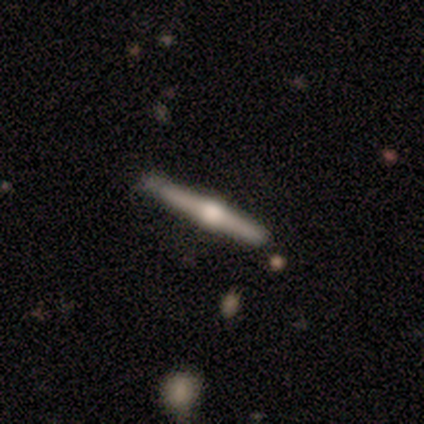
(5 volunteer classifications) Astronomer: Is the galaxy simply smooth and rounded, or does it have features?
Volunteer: smooth — 60% (runner-up: featured or disk, 40%).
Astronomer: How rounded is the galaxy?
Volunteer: cigar-shaped — 100%.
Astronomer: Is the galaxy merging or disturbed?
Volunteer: none — 100%.